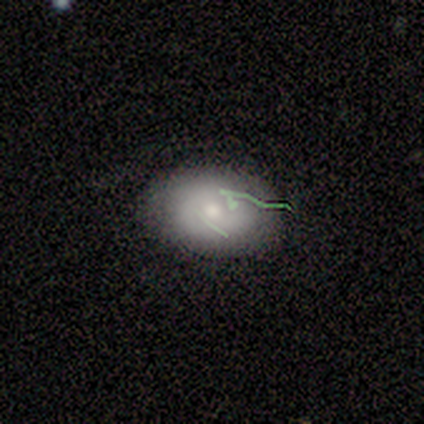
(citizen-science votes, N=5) Consensus on every question: smooth or featured — smooth (100%); how rounded — in between (100%); merging — none (100%).